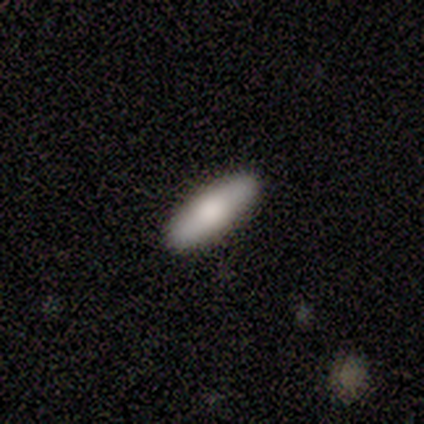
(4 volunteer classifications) Smooth or featured? 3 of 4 (75%) said smooth. How rounded? 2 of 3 (67%) said in between. Merging? 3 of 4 (75%) said none.